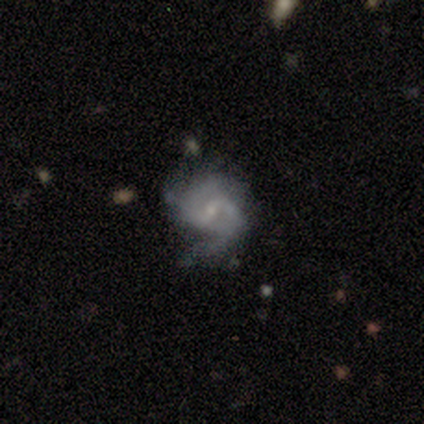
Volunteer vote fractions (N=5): This appears to be a featured or disk galaxy (60%) with a weak bar (100%), 2 (67%) loose (67%) spiral arms (100%) and a small central bulge (100%). Merging: major disturbance (50%).